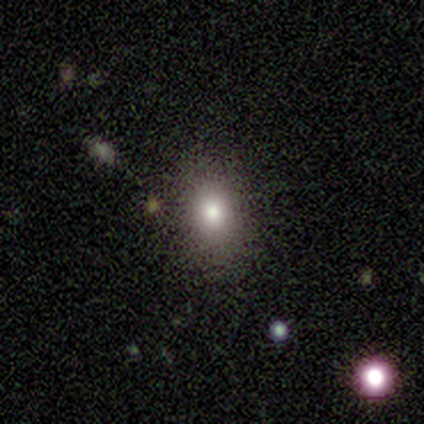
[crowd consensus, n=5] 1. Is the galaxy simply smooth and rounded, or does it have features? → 100% smooth, 0% featured or disk, 0% star or artifact.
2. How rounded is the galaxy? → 100% in between, 0% round, 0% cigar-shaped.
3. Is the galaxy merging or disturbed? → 100% none, 0% minor disturbance, 0% major disturbance, 0% merger.